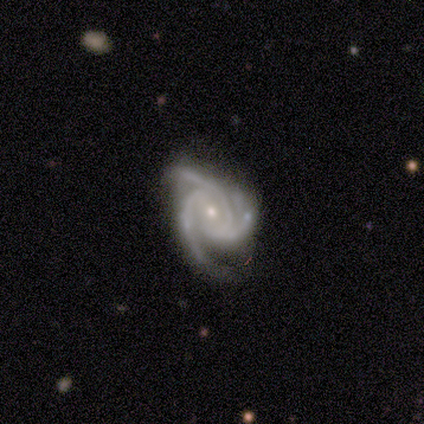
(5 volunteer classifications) Smooth or featured? featured or disk (80%)
Edge-on disk? no (100%)
Bar? weak (50%, tied with no)
Spiral arms? yes (100%)
Spiral winding? tight (75%)
Spiral arm count? 3 (100%)
Bulge size? small (75%)
Merging? none (60%)